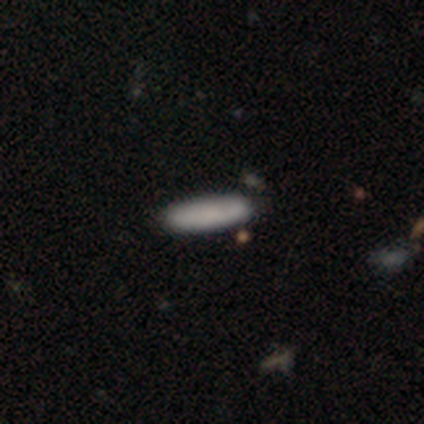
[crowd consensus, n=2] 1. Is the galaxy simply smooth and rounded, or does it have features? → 50% smooth (tied), 50% featured or disk (tied), 0% star or artifact.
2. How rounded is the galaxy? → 100% cigar-shaped, 0% round, 0% in between.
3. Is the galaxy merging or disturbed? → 50% none (tied), 50% minor disturbance (tied), 0% major disturbance, 0% merger.